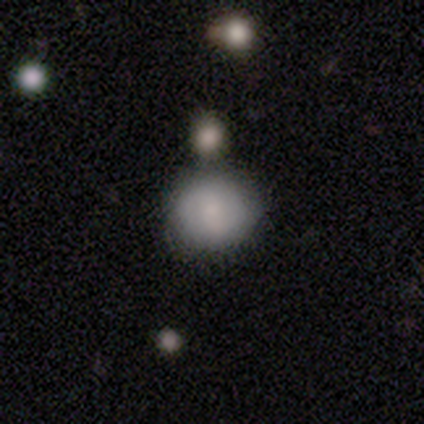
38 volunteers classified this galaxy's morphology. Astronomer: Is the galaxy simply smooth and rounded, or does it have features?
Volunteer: smooth — 79%.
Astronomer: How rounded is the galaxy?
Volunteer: round — 90%.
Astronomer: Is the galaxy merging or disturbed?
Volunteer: none — 75%.